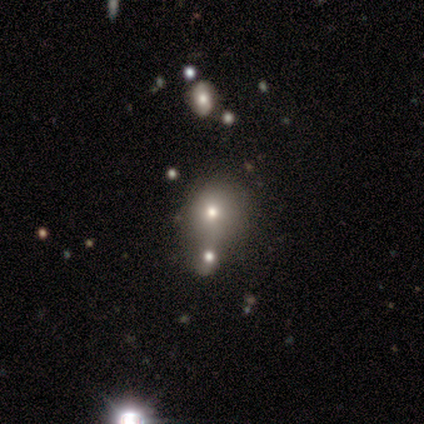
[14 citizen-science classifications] This appears to be a smooth galaxy with no disk features (71%) that is round (60%). Merging: merger (50%).